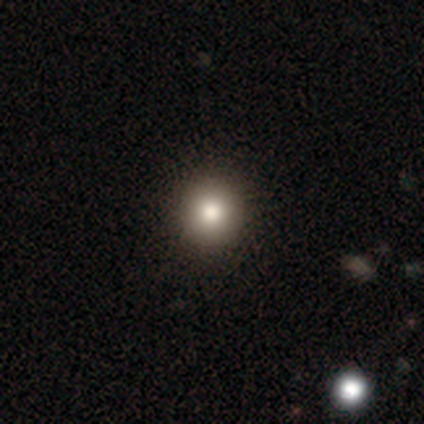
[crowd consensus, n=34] This is likely a smooth galaxy (68%). How rounded: clearly round (91%). Merging: clearly none (96%).